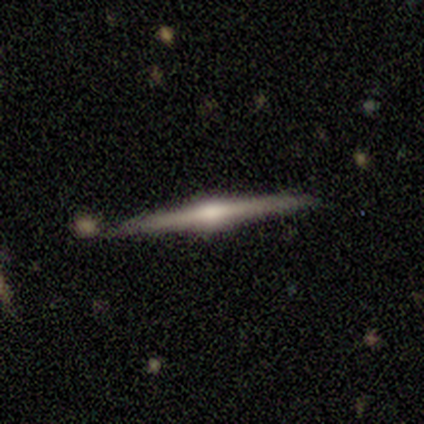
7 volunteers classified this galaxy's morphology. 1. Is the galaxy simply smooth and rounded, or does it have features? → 86% featured or disk, 14% smooth, 0% star or artifact.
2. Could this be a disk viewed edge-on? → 100% yes, 0% no.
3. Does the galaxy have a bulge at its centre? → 100% rounded, 0% boxy, 0% none.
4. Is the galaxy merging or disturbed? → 71% none, 29% merger, 0% minor disturbance, 0% major disturbance.